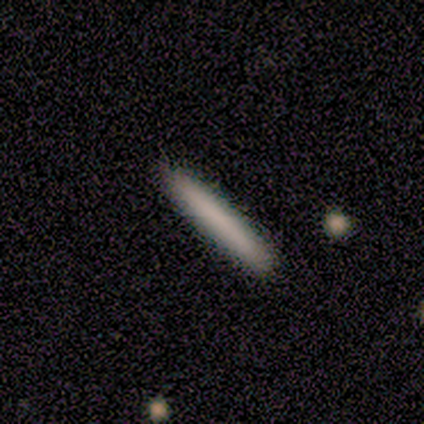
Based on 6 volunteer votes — smooth 83%, featured or disk 17%, star or artifact 0%. Down the decision tree: how rounded — cigar-shaped (100%); merging — none (83%).